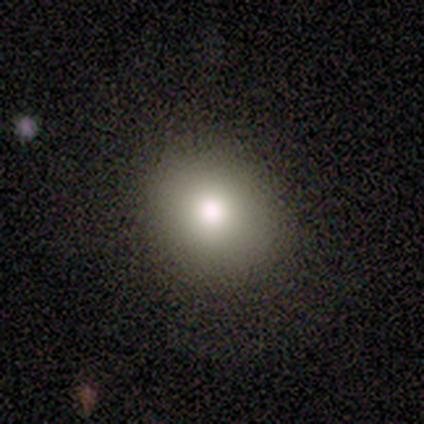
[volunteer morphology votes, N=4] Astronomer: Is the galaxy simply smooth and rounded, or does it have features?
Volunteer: smooth — 50%.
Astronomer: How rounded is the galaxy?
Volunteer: round — 100%.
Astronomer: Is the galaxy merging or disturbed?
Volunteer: none — 100%.